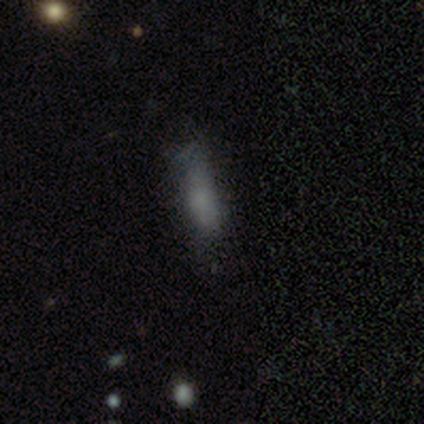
Smooth or featured? 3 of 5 (60%) said smooth. How rounded? 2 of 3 (67%) said in between. Merging? 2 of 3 (67%) said major disturbance.